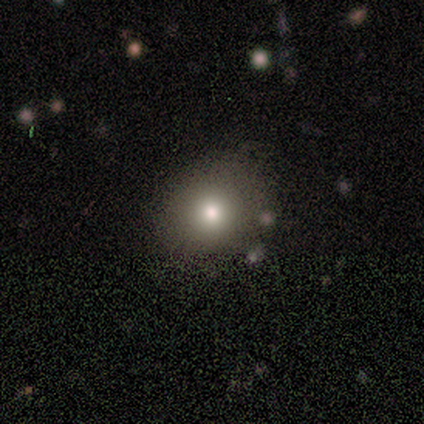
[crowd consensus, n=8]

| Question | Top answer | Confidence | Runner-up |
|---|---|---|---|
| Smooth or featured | smooth | 88% | featured or disk (12%) |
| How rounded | round | 71% | in between (29%) |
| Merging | none | 100% | — |